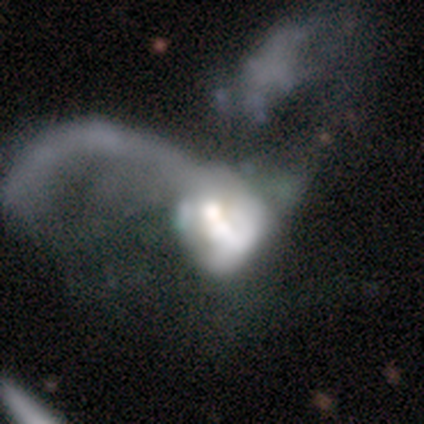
Smooth or featured? 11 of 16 (69%) said featured or disk. Edge-on disk? 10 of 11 (91%) said no. Bar? 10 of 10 (100%) said no. Spiral arms? 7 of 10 (70%) said no. Bulge size? 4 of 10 (40%) said large. Merging? 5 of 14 (36%) said major disturbance.